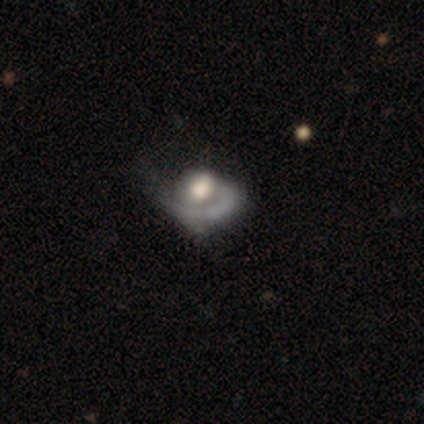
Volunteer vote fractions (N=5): Smooth or featured? 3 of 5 (60%) said featured or disk. Edge-on disk? 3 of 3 (100%) said no. Bar? 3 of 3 (100%) said no. Spiral arms? 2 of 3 (67%) said no. Bulge size? 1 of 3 (33%, tied with moderate and none) said large. Merging? 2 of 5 (40%) said minor disturbance.